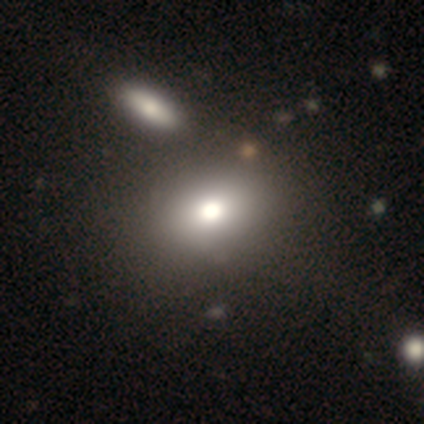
A featured or disk galaxy (60%) with no bar (100%), no spiral arms (100%) and a large central bulge (67%). Merging: none (80%).